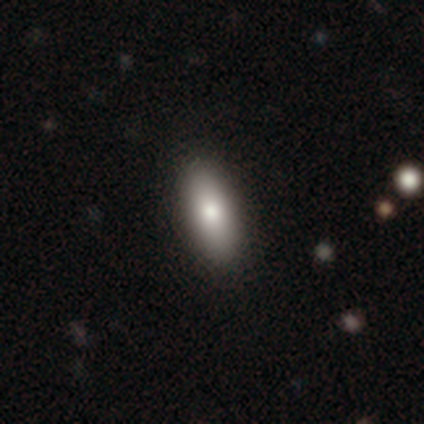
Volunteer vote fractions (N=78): Volunteers were most divided on "merging": none: 49%, minor disturbance: 1%, major disturbance: 0%, merger: 0%. More confident: smooth or featured — smooth (90%); how rounded — in between (84%).